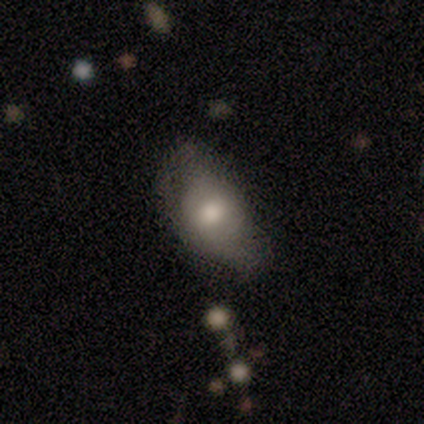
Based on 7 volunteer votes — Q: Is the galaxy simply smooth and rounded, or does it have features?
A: smooth — 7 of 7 (100%).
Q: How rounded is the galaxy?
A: in between — 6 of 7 (86%).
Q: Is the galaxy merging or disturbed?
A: none — 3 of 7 (43%, tied with minor disturbance).